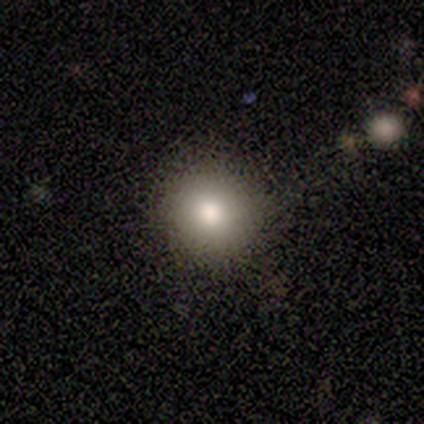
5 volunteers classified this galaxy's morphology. Q: Smooth or featured?
A: smooth (80%); runner-up: star or artifact (20%)
Q: How rounded?
A: round (100%)
Q: Merging?
A: none (100%)